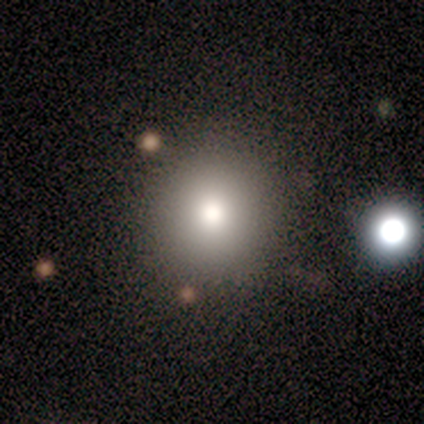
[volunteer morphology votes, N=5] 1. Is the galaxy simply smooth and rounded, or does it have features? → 60% smooth, 40% star or artifact, 0% featured or disk.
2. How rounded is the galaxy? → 100% round, 0% in between, 0% cigar-shaped.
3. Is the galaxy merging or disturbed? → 100% none, 0% minor disturbance, 0% major disturbance, 0% merger.